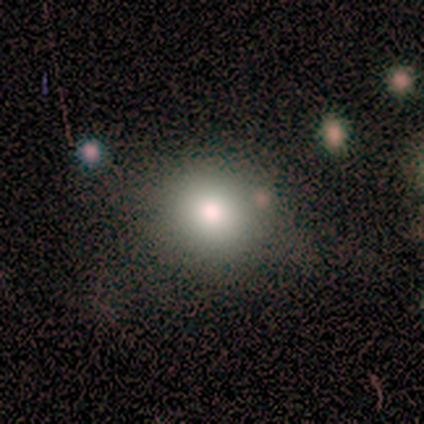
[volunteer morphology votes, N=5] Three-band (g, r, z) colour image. It shows a smooth galaxy with no disk features (80%) that is round (100%). Merging: none (50%, tied with minor disturbance).